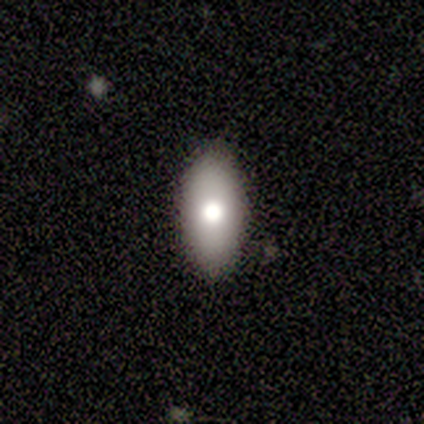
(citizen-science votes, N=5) This is likely a featured or disk galaxy (60%). It is clearly not viewed edge-on (100%). Bar: clearly no (100%). Spiral arm pattern: clearly no (100%). Central bulge: likely moderate (67%). Merging: clearly none (80%).